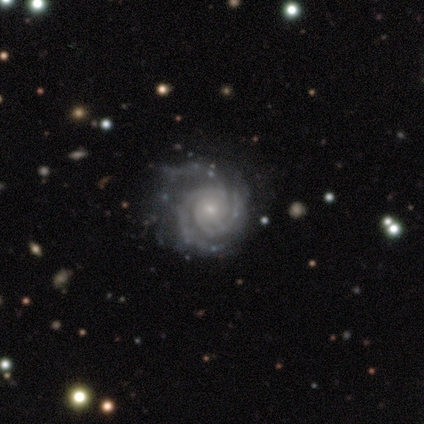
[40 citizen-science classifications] Smooth or featured? 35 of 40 (88%) said featured or disk. Edge-on disk? 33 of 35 (94%) said no. Bar? 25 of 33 (76%) said no. Spiral arms? 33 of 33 (100%) said yes. Spiral winding? 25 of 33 (76%) said tight. Spiral arm count? 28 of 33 (85%) said 3. Bulge size? 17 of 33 (52%) said small. Merging? 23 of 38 (61%) said none.